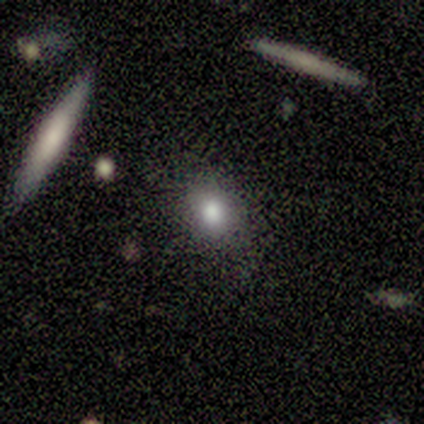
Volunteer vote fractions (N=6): Smooth or featured?
  - smooth: 100% *
  - featured or disk: 0%
  - star or artifact: 0%
How rounded?
  - round: 83% *
  - in between: 17%
  - cigar-shaped: 0%
Merging?
  - none: 100% *
  - minor disturbance: 0%
  - major disturbance: 0%
  - merger: 0%